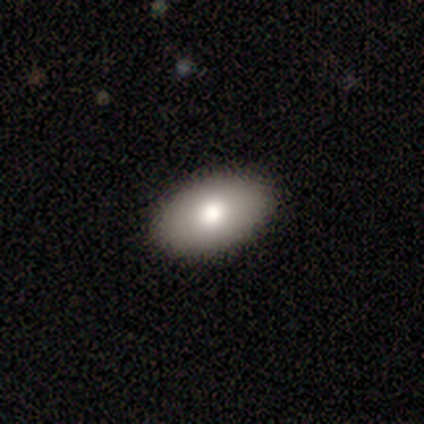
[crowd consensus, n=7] Overall: smooth (86%). How rounded: in between (83%). Merging: none (100%).